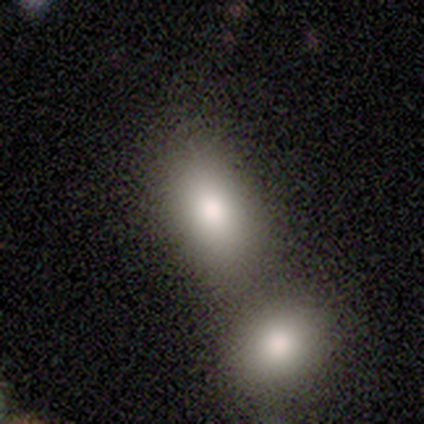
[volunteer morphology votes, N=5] Overall: smooth (80%). How rounded: in between (100%). Merging: none (50%; minor disturbance 25%).